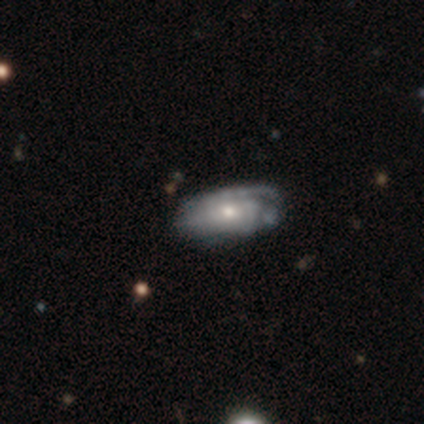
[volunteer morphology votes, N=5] A featured or disk galaxy (60%) with no bar (67%), 1 (50%, tied with 2) tight (50%, tied with medium) spiral arms (67%) and a moderate central bulge (67%). Merging: none (75%).